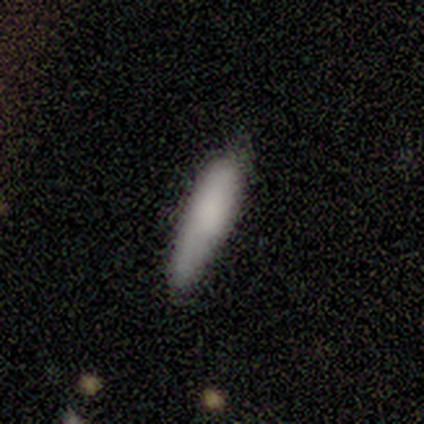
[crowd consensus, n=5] Smooth or featured? 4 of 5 (80%) said smooth. How rounded? 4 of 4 (100%) said cigar-shaped. Merging? 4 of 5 (80%) said none.